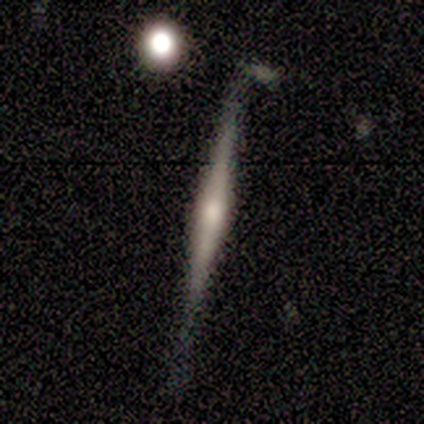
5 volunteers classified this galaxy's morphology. Smooth or featured? 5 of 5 (100%) said featured or disk. Edge-on disk? 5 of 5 (100%) said yes. Edge-on bulge? 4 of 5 (80%) said rounded. Merging? 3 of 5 (60%) said none.